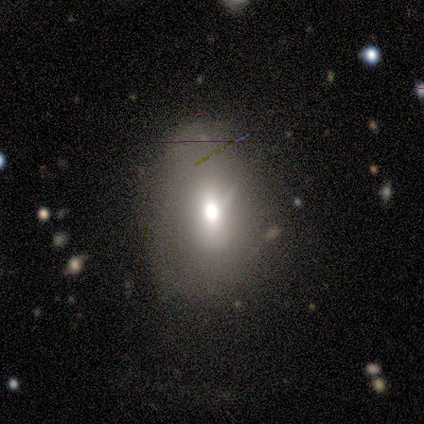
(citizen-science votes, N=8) A smooth galaxy with no disk features (88%) that is in between round and cigar-shaped (100%). Merging: none (43%).